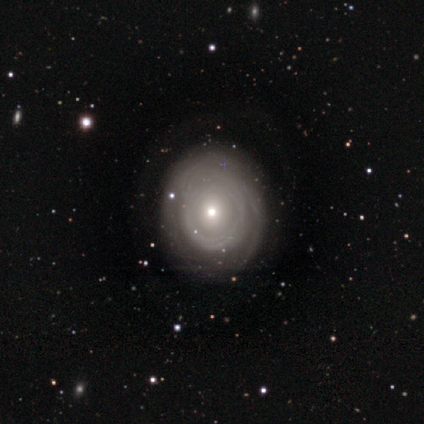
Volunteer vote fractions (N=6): Smooth or featured: featured or disk — 67% (smooth — 33%)
Edge-on disk: no — 100%
Bar: no — 75% (weak — 25%)
Spiral arms: yes — 75% (no — 25%)
Spiral winding: loose — 67% (medium — 33%)
Spiral arm count: can't tell — 100%
Bulge size: moderate — 50% (tied with small — 50%)
Merging: none — 50% (tied with minor disturbance — 50%)